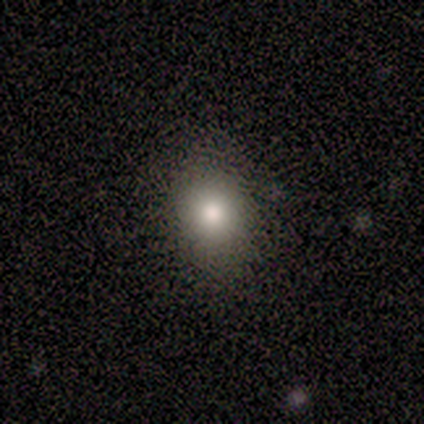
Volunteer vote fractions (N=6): A smooth galaxy with no disk features (100%) that is round (83%).

Vote fractions:
- Smooth or featured? smooth: 100% / featured or disk: 0% / star or artifact: 0%
- How rounded? round: 83% / in between: 17% / cigar-shaped: 0%
- Merging? none: 100% / minor disturbance: 0% / major disturbance: 0% / merger: 0%